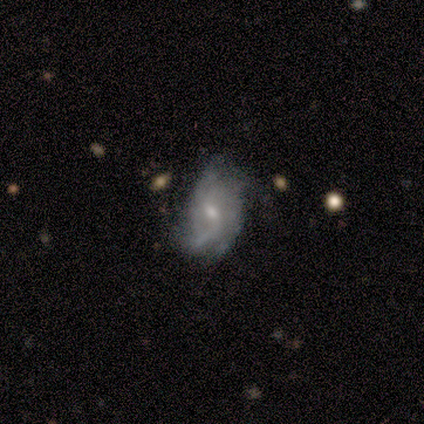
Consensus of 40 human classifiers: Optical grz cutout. It shows a featured or disk galaxy (68%) with a weak bar (52%), 2 (38%, tied with can't tell) loose (48%) spiral arms (84%) and a moderate central bulge (52%). Merging: none (51%).